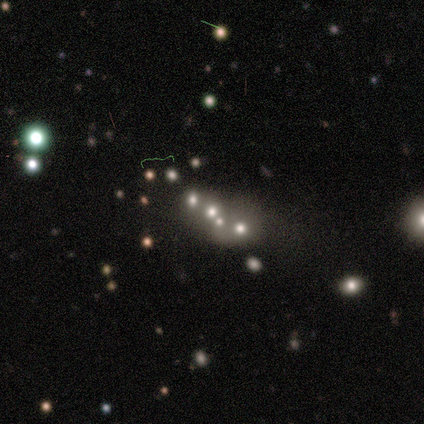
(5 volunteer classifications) Morphology: type=star or artifact (60%).